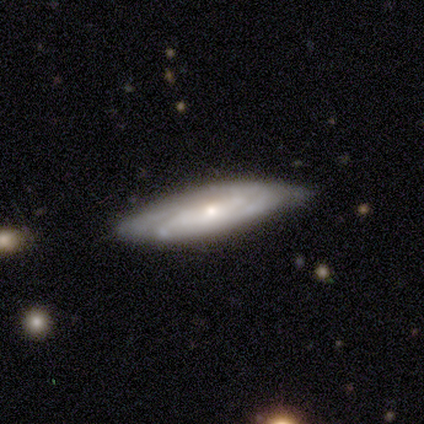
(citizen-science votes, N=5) Smooth or featured: featured or disk — 100%
Edge-on disk: no — 80% (yes — 20%)
Bar: no — 100%
Spiral arms: yes — 100%
Spiral winding: tight — 50% (tied with medium — 50%)
Spiral arm count: can't tell — 50% (2 — 25%)
Bulge size: small — 75% (none — 25%)
Merging: none — 100%